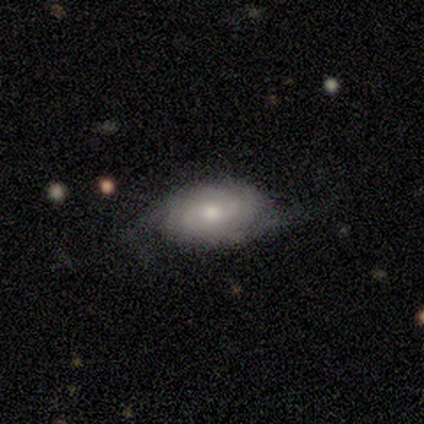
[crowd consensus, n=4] A featured or disk galaxy (100%) with no bar (100%), tight (100%) spiral arms (75%) and a moderate central bulge (50%, tied with small).

Vote fractions:
- Smooth or featured? featured or disk: 100% / smooth: 0% / star or artifact: 0%
- Edge-on disk? no: 100% / yes: 0%
- Bar? no: 100% / strong: 0% / weak: 0%
- Spiral arms? yes: 75% / no: 25%
- Spiral winding? tight: 100% / medium: 0% / loose: 0%
- Spiral arm count? can't tell: 67% / 2: 33% / 1: 0% / 3: 0% / 4: 0% / more than 4: 0%
- Bulge size? moderate: 50% (tied) / small: 50% (tied) / dominant: 0% / large: 0% / none: 0%
- Merging? none: 100% / minor disturbance: 0% / major disturbance: 0% / merger: 0%